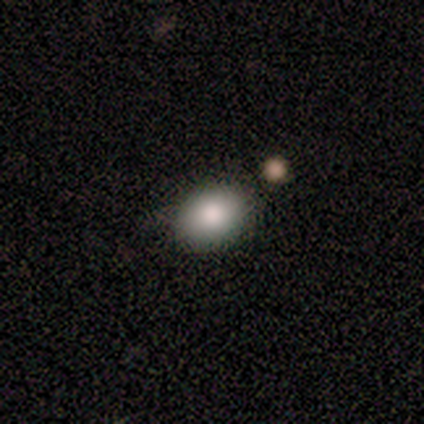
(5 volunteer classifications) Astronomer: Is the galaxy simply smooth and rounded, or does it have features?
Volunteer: smooth — 80%.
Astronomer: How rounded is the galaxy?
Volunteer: in between — 100%.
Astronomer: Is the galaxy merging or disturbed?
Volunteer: none — 80%.